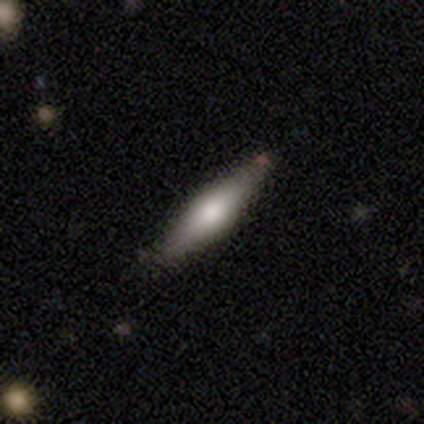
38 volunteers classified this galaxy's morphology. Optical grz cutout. It shows a featured or disk galaxy (50%) viewed edge-on (84%) with a rounded central bulge (94%). Merging: none (77%).